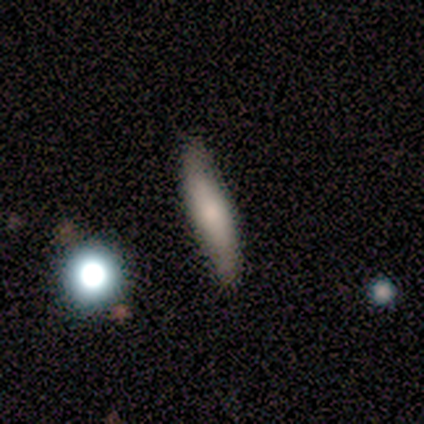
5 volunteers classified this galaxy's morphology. smooth 60%, featured or disk 20%, star or artifact 20%. Down the decision tree: how rounded — cigar-shaped (100%); merging — none (100%).